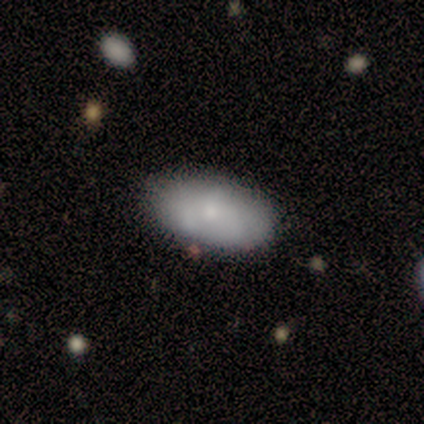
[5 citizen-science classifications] A smooth galaxy with no disk features (80%) that is in between round and cigar-shaped (100%). Merging: none (100%).